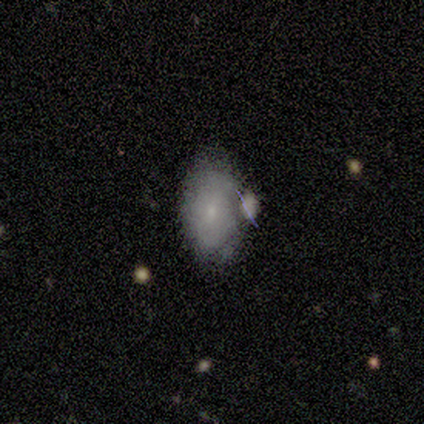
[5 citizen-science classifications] Smooth or featured? smooth (60%)
How rounded? in between (100%)
Merging? merger (60%)